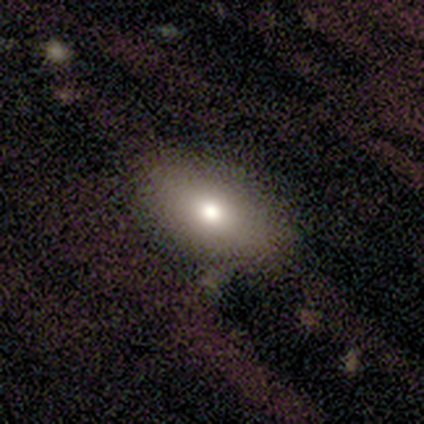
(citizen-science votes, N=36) This is likely a smooth galaxy (75%). How rounded: clearly in between (96%). Merging: clearly none (81%).